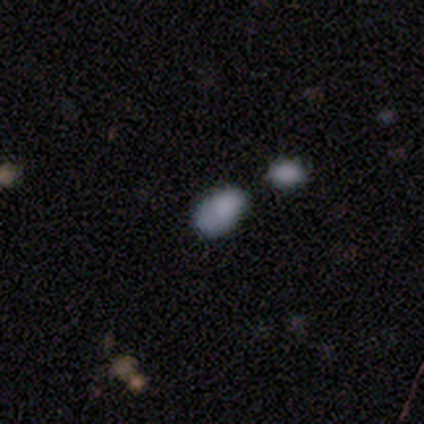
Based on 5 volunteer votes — Smooth or featured: smooth — 100%
How rounded: in between — 80% (round — 20%)
Merging: none — 60% (minor disturbance — 20%)